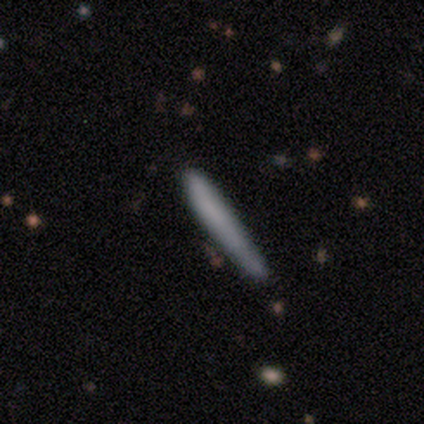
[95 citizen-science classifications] Volunteers were most divided on "smooth or featured": smooth: 78%, featured or disk: 16%, star or artifact: 6%. More confident: how rounded — cigar-shaped (100%); merging — none (78%).